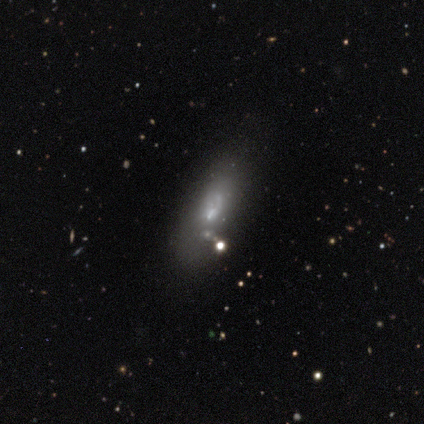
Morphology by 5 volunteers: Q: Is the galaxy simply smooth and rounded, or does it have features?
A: smooth — 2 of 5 (40%, tied with featured or disk).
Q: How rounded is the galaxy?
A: in between — 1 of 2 (50%, tied with cigar-shaped).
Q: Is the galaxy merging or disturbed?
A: none — 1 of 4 (25%, tied with minor disturbance, major disturbance and merger).